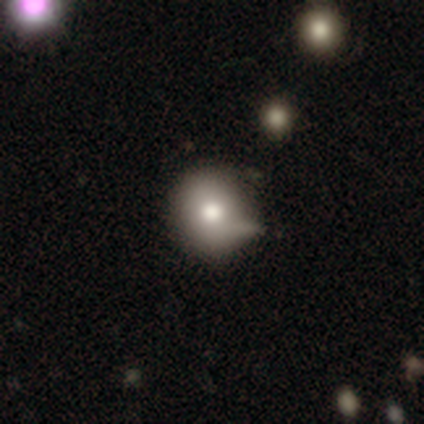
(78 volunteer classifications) A smooth galaxy with no disk features (82%) that is round (92%). Merging: none (27%).